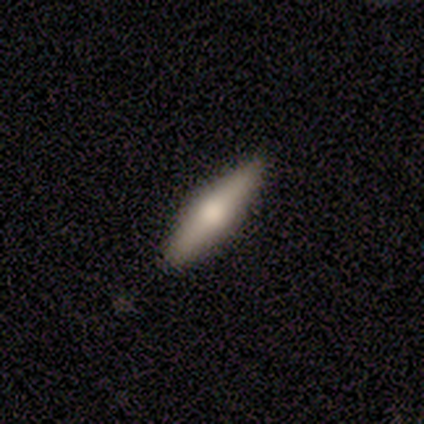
Smooth or featured?
  - featured or disk: 100% *
  - smooth: 0%
  - star or artifact: 0%
Edge-on disk?
  - yes: 75% *
  - no: 25%
Edge-on bulge?
  - rounded: 67% *
  - boxy: 33%
  - none: 0%
Merging?
  - none: 100% *
  - minor disturbance: 0%
  - major disturbance: 0%
  - merger: 0%